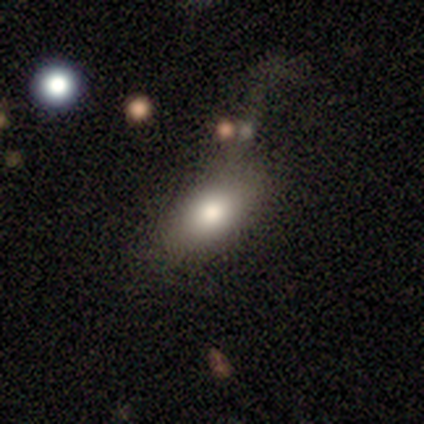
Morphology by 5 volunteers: smooth_or_featured: smooth (p=1.00)
how_rounded: in between (p=0.80) [alt: round p=0.20]
merging: none (p=0.80) [alt: minor disturbance p=0.20]